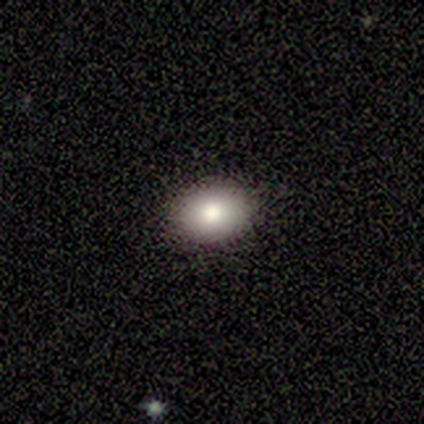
A smooth galaxy with no disk features (40%, tied with featured or disk) that is in between round and cigar-shaped (100%).

Vote fractions:
- Smooth or featured? smooth: 40% (tied) / featured or disk: 40% (tied) / star or artifact: 20%
- How rounded? in between: 100% / round: 0% / cigar-shaped: 0%
- Merging? none: 100% / minor disturbance: 0% / major disturbance: 0% / merger: 0%